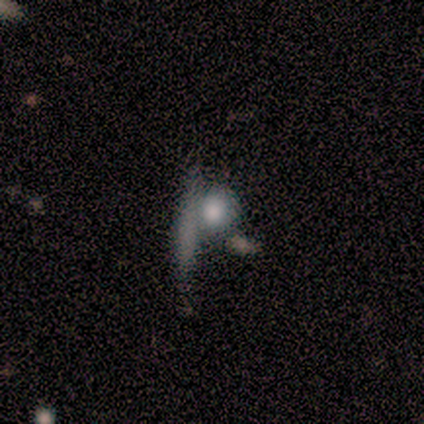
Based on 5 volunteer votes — Q: Smooth or featured?
A: smooth (100%)
Q: How rounded?
A: round (60%); runner-up: in between (20%)
Q: Merging?
A: none (60%); runner-up: merger (40%)